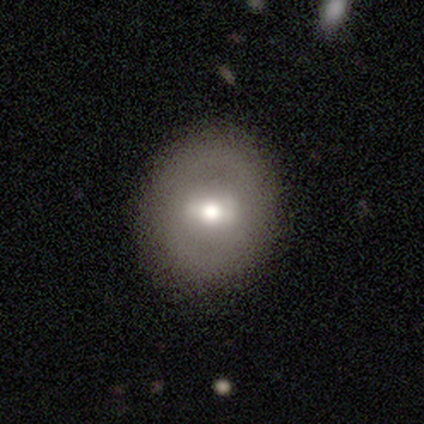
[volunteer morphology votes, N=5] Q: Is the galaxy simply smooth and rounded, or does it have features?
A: smooth — 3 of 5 (60%).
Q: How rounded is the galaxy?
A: in between — 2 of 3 (67%).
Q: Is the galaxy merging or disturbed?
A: none — 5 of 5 (100%).